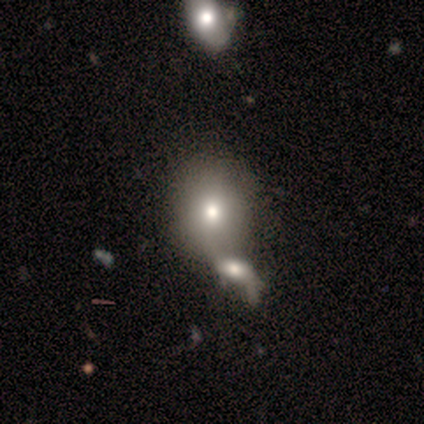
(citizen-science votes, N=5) Q: Smooth or featured?
A: smooth (100%)
Q: How rounded?
A: in between (100%)
Q: Merging?
A: merger (60%); runner-up: minor disturbance (20%)